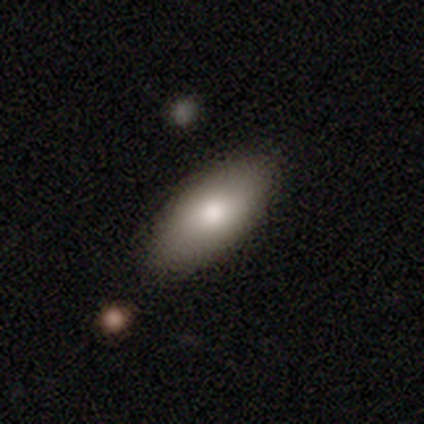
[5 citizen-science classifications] Overall: smooth (80%). How rounded: in between (100%). Merging: none (80%).